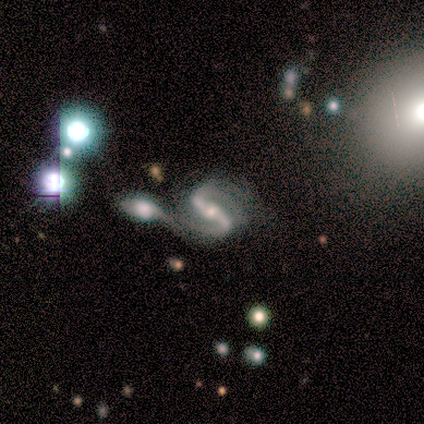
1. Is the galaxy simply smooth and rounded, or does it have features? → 75% featured or disk, 25% smooth, 0% star or artifact.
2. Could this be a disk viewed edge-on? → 100% no, 0% yes.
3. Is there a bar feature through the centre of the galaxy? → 100% strong, 0% weak, 0% no.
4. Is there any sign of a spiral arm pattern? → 100% yes, 0% no.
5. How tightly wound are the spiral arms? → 67% medium, 33% tight, 0% loose.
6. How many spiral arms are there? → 100% 2, 0% 1, 0% 3, 0% 4, 0% more than 4, 0% can't tell.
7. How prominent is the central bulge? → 33% large (tied), 33% moderate (tied), 33% small (tied), 0% dominant, 0% none.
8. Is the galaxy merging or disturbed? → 50% none (tied), 50% merger (tied), 0% minor disturbance, 0% major disturbance.